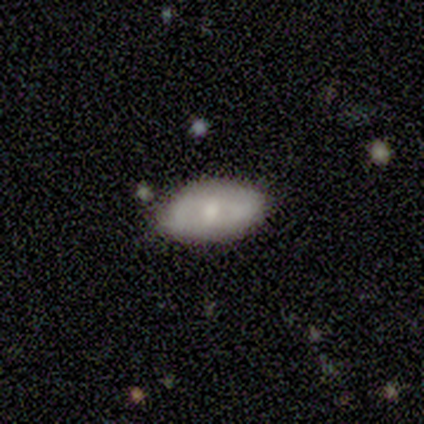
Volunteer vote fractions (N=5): Q: Smooth or featured?
A: smooth (80%); runner-up: star or artifact (20%)
Q: How rounded?
A: in between (100%)
Q: Merging?
A: none (75%); runner-up: minor disturbance (25%)